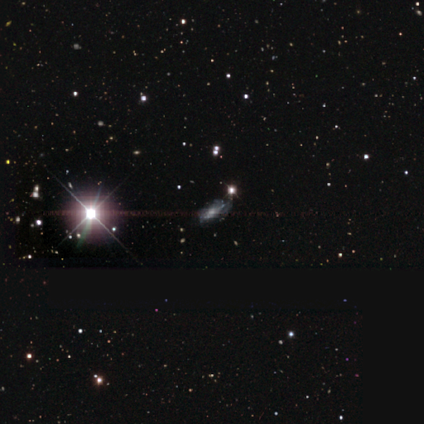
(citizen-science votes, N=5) smooth-or-featured: star or artifact: 60% | smooth: 20% | featured or disk: 20%